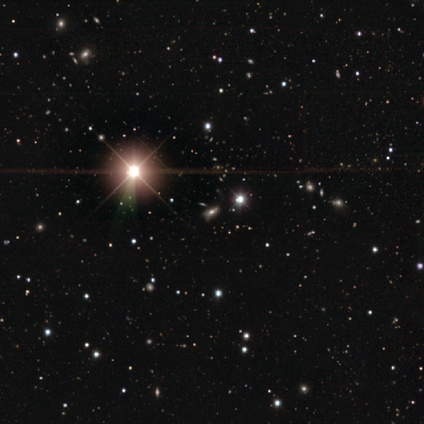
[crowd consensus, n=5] Smooth or featured: star or artifact — 80% (featured or disk — 20%)